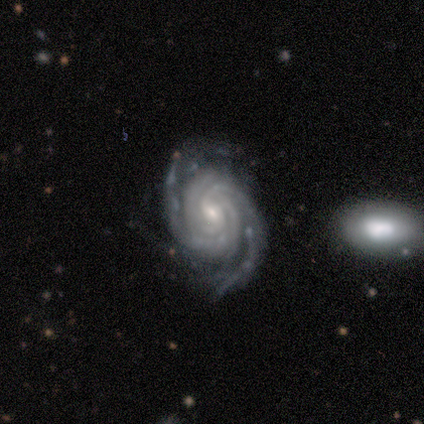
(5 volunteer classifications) smooth_or_featured: featured or disk (p=1.00)
disk_edge_on: no (p=1.00)
bar: weak (p=0.60) [alt: no p=0.40]
has_spiral_arms: yes (p=1.00)
spiral_winding: tight (p=0.80) [alt: medium p=0.20]
spiral_arm_count: 3 (p=0.40) [tied with: 4 p=0.40]
bulge_size: small (p=0.60) [alt: moderate p=0.40]
merging: none (p=1.00)